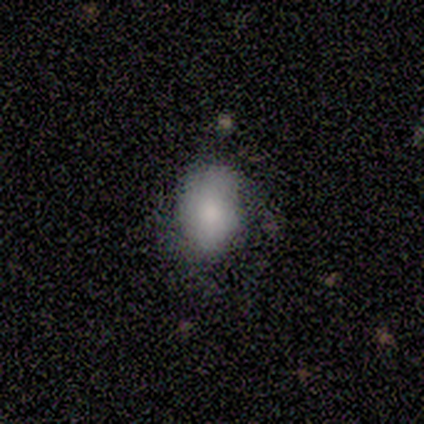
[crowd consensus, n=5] This is likely a smooth galaxy (60%). How rounded: likely in between (67%). Merging: likely minor disturbance (67%).